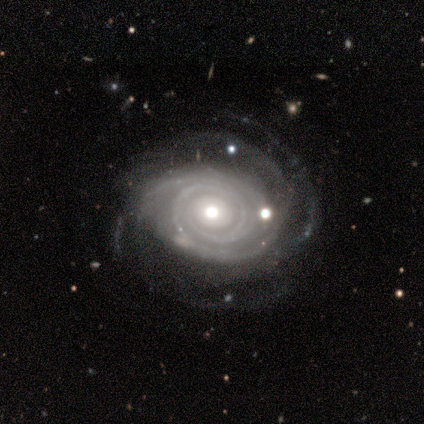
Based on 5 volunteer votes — This is clearly a featured or disk galaxy (100%). It is clearly not viewed edge-on (80%). Bar: possibly strong (50%, tied with no). Spiral arm pattern: clearly yes (100%). Spiral arm count: marginally 1 (25%, tied with 2, 4 and more than 4). Spiral winding: clearly tight (100%). Central bulge: possibly moderate (50%, tied with small). Merging: clearly none (80%).